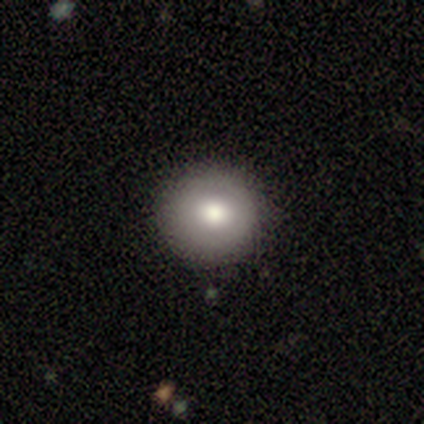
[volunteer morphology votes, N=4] Smooth or featured? smooth (75%)
How rounded? round (100%)
Merging? none (75%)